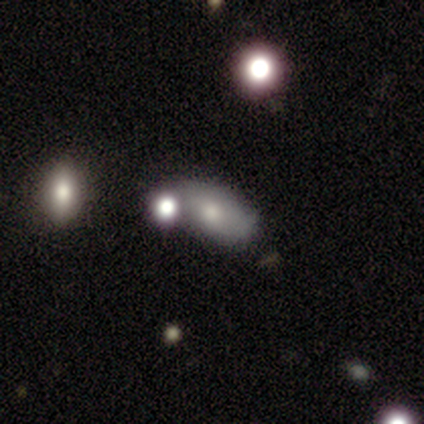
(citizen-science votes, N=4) smooth-or-featured: smooth: 75% | featured or disk: 25% | star or artifact: 0%
  how-rounded: in between: 67% | cigar-shaped: 33% | round: 0%
  merging: merger: 75% | minor disturbance: 25% | none: 0% | major disturbance: 0%